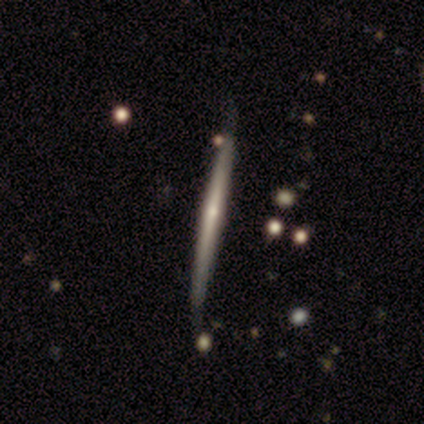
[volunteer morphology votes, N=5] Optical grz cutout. It shows a featured or disk galaxy (60%) viewed edge-on (100%) with a rounded central bulge (67%). Merging: none (60%).